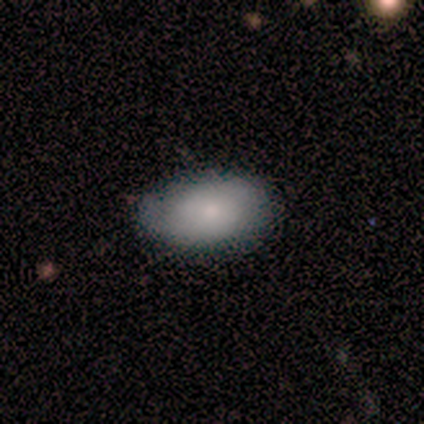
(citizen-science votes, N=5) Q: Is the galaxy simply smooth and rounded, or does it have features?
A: smooth — 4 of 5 (80%).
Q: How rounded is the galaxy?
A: round — 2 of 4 (50%, tied with in between).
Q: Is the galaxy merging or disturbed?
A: none — 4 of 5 (80%).